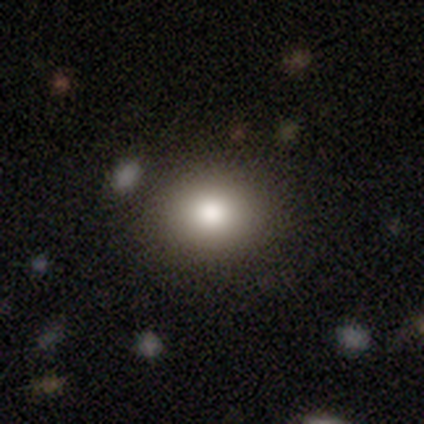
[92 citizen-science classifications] Overall: smooth (78%). How rounded: round (53%; in between 47%). Merging: none (88%).